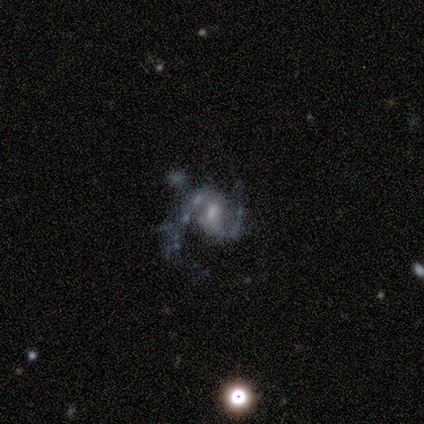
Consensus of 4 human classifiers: Volunteers were most divided on "merging": none: 50%, major disturbance: 25%, merger: 25%, minor disturbance: 0%. More confident: smooth or featured — featured or disk (100%); edge-on disk — no (100%); spiral arms — yes (100%); bar — no (75%); spiral winding — medium (75%); spiral arm count — 2 (75%); bulge size — small (75%).